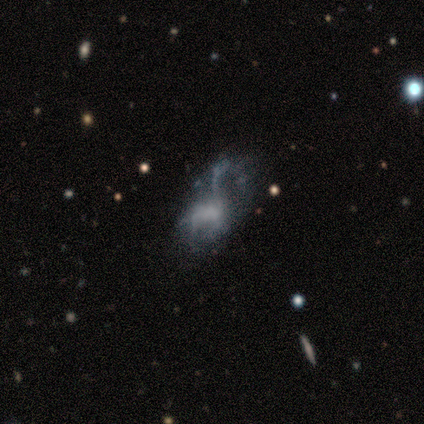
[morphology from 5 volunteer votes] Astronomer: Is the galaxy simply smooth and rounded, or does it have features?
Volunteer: featured or disk — 60% (runner-up: smooth, 40%).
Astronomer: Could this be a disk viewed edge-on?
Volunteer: no — 100%.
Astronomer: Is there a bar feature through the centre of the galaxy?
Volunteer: no — 100%.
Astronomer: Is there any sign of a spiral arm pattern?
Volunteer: no — 100%.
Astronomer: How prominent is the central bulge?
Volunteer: moderate — 33%, tied with small and none at 33%.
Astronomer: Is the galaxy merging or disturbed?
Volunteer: minor disturbance — 40%, tied with major disturbance at 40%.